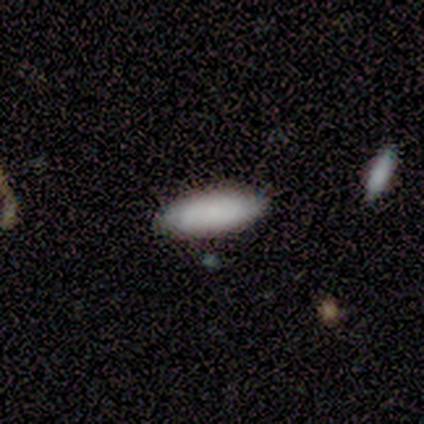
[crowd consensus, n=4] This is clearly a smooth galaxy (100%). How rounded: possibly in between (50%, tied with cigar-shaped). Merging: clearly none (100%).